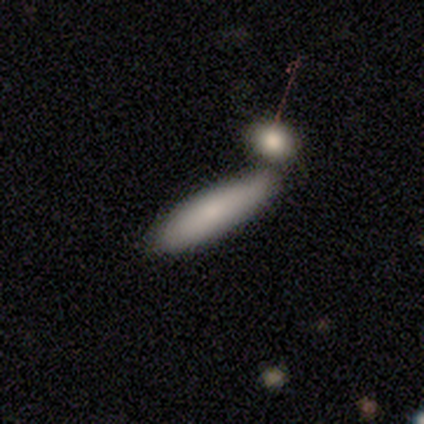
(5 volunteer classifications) Smooth or featured? 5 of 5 (100%) said smooth. How rounded? 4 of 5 (80%) said cigar-shaped. Merging? 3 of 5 (60%) said none.